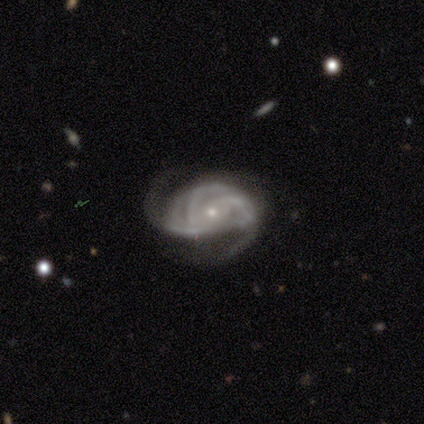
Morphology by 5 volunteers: Smooth or featured? featured or disk (100%)
Edge-on disk? no (100%)
Bar? no (100%)
Spiral arms? yes (100%)
Spiral winding? tight (80%)
Spiral arm count? 3 (40%, tied with 4)
Bulge size? small (100%)
Merging? none (60%)